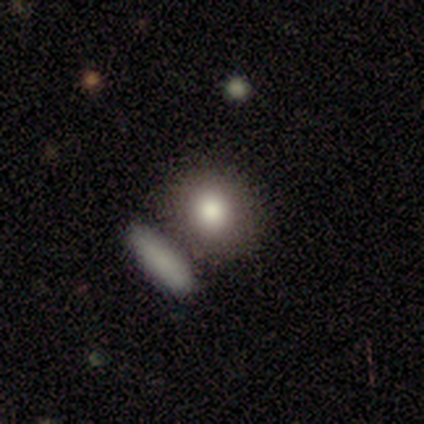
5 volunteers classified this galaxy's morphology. type=smooth (80%); roundness=round (75%); merging=none (40%, tied with merger).